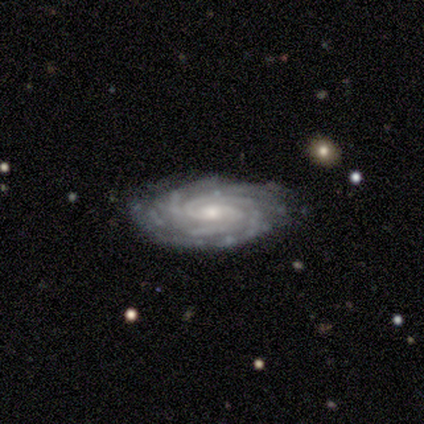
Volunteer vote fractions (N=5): Morphology: type=featured or disk (100%); edge-on=no (100%); bar=strong (40%, tied with weak); spiral arms=yes (100%); winding=tight (60%); arm count=3 (40%, tied with can't tell); bulge=moderate (60%); merging=none (80%).